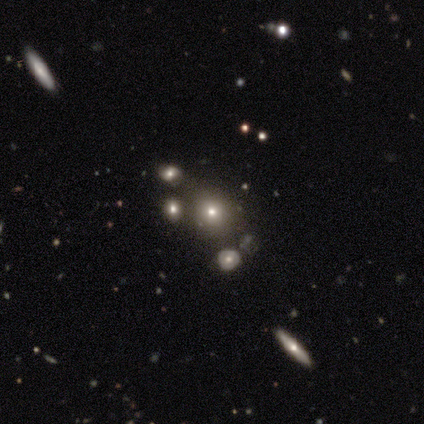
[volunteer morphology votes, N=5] type=smooth (80%); roundness=round (100%); merging=none (80%).